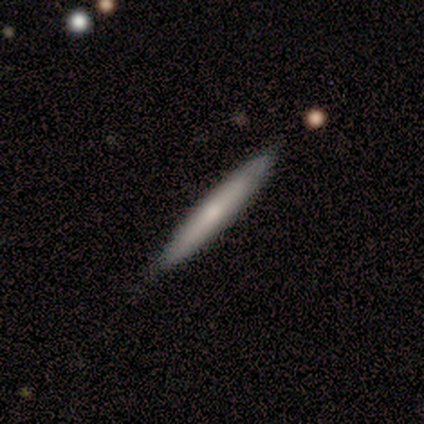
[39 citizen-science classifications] This appears to be a smooth galaxy with no disk features (51%) that is cigar-shaped (100%). Merging: none (81%).